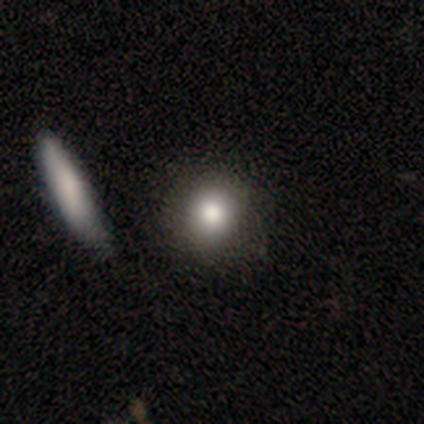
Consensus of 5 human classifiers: A smooth galaxy with no disk features (100%) that is round (80%). Merging: minor disturbance (40%, tied with merger).